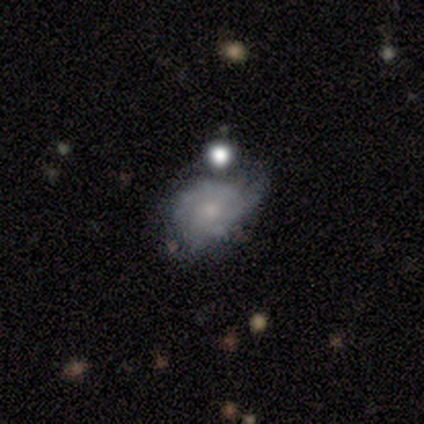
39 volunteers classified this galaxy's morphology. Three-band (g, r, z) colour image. It shows a featured or disk galaxy (59%) with no bar (83%), 2 (54%) tight (54%) spiral arms (57%) and a small central bulge (52%). Merging: minor disturbance (43%).